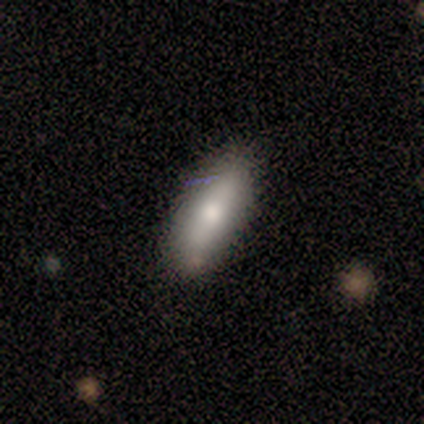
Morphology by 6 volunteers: Smooth or featured: smooth — 50% (star or artifact — 33%)
How rounded: in between — 67% (cigar-shaped — 33%)
Merging: none — 100%